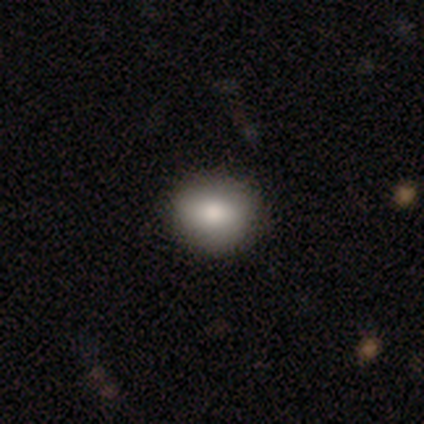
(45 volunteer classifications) Smooth or featured: smooth — 87% (star or artifact — 9%)
How rounded: round — 74% (in between — 26%)
Merging: none — 95% (minor disturbance — 5%)